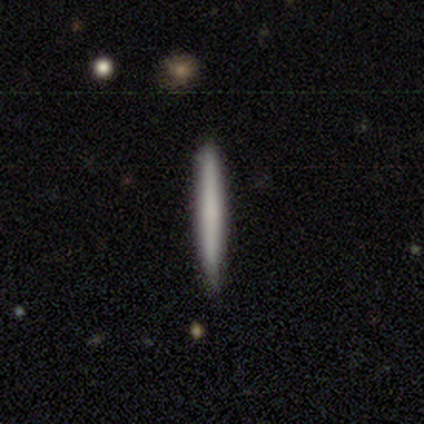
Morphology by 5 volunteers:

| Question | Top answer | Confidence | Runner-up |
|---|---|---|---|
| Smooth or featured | smooth | 100% | — |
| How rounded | cigar-shaped | 100% | — |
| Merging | none | 100% | — |